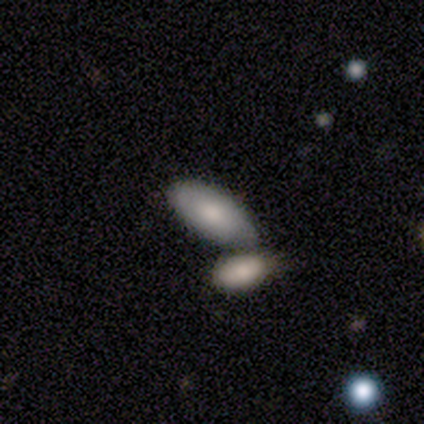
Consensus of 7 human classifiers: This is possibly a smooth galaxy (57%). How rounded: clearly in between (100%). Merging: possibly none (50%, tied with merger).